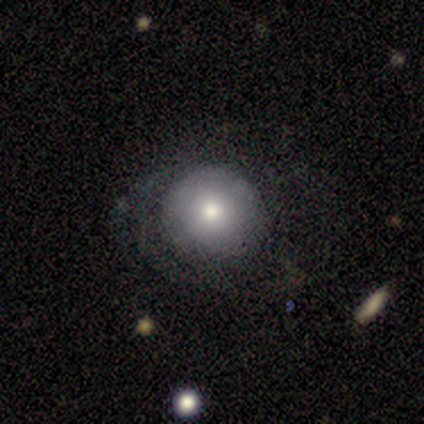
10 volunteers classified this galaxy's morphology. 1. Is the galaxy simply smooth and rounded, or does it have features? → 70% smooth, 30% featured or disk, 0% star or artifact.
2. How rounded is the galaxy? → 100% round, 0% in between, 0% cigar-shaped.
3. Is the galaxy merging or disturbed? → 60% none, 20% minor disturbance, 20% major disturbance, 0% merger.